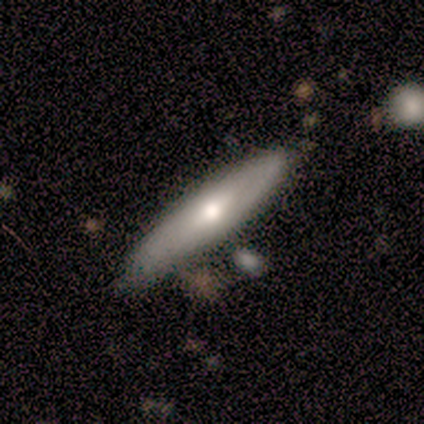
Smooth or featured?
  - featured or disk: 60% *
  - smooth: 40%
  - star or artifact: 0%
Edge-on disk?
  - no: 67% *
  - yes: 33%
Bar?
  - no: 100% *
  - strong: 0%
  - weak: 0%
Spiral arms?
  - no: 100% *
  - yes: 0%
Bulge size?
  - moderate: 50% * (tied)
  - small: 50% * (tied)
  - dominant: 0%
  - large: 0%
  - none: 0%
Merging?
  - none: 60% *
  - minor disturbance: 40%
  - major disturbance: 0%
  - merger: 0%